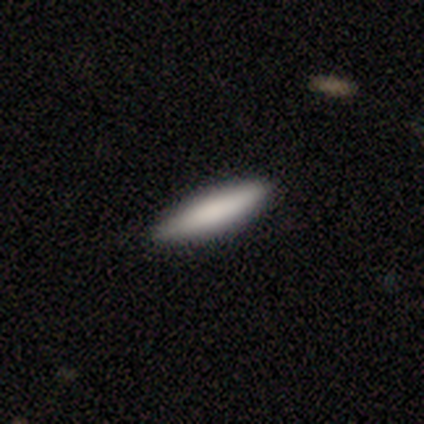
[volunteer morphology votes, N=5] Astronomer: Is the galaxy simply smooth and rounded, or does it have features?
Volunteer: smooth — 80%.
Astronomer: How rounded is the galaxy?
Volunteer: cigar-shaped — 75%.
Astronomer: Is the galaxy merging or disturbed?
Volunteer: none — 100%.